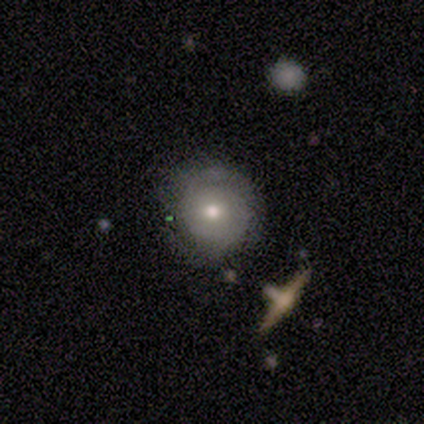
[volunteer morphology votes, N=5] Smooth or featured? 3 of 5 (60%) said featured or disk. Edge-on disk? 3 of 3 (100%) said no. Bar? 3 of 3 (100%) said no. Spiral arms? 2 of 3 (67%) said yes. Spiral winding? 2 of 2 (100%) said tight. Spiral arm count? 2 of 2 (100%) said 2. Bulge size? 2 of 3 (67%) said moderate. Merging? 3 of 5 (60%) said none.